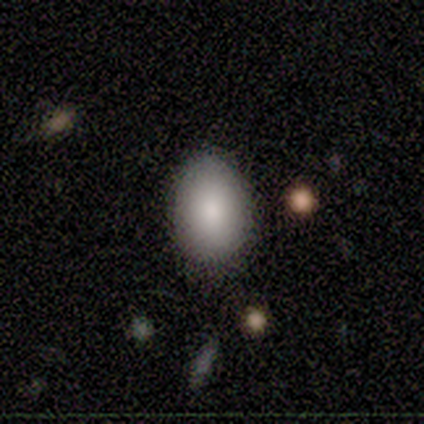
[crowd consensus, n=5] Smooth or featured: smooth — 60% (star or artifact — 40%)
How rounded: round — 67% (in between — 33%)
Merging: none — 100%